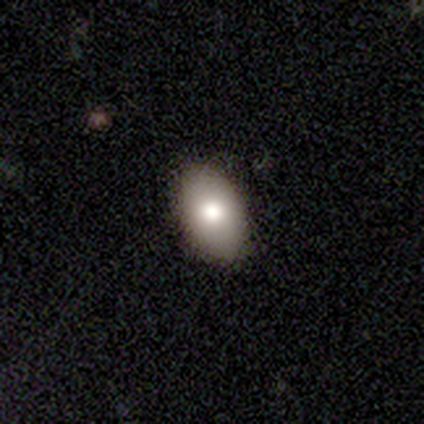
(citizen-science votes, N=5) smooth-or-featured: smooth: 100% | featured or disk: 0% | star or artifact: 0%
  how-rounded: in between: 80% | round: 20% | cigar-shaped: 0%
  merging: none: 100% | minor disturbance: 0% | major disturbance: 0% | merger: 0%